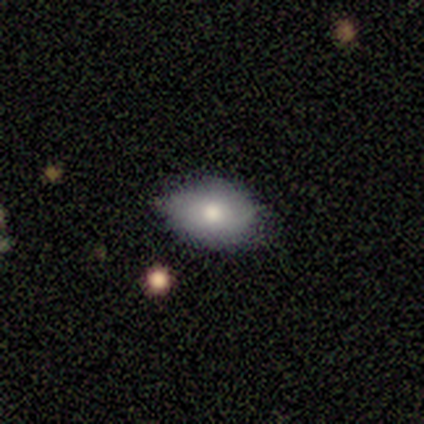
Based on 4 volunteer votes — Smooth or featured: smooth — 50% (tied with featured or disk — 50%)
How rounded: in between — 100%
Merging: none — 50% (minor disturbance — 25%)